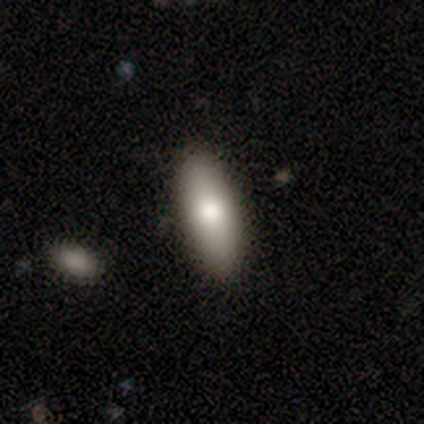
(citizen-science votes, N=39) Smooth or featured? smooth (87%)
How rounded? in between (74%)
Merging? none (50%)